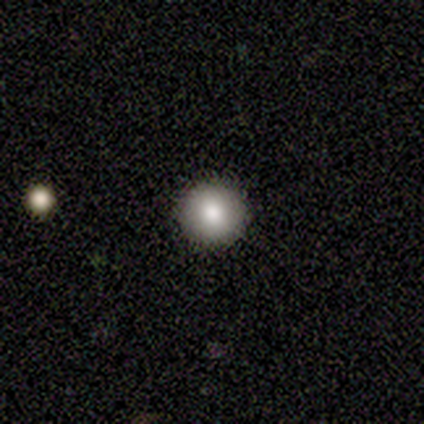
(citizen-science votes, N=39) smooth-or-featured: smooth: 87% | star or artifact: 8% | featured or disk: 5%
  how-rounded: round: 100% | in between: 0% | cigar-shaped: 0%
  merging: none: 97% | merger: 3% | minor disturbance: 0% | major disturbance: 0%